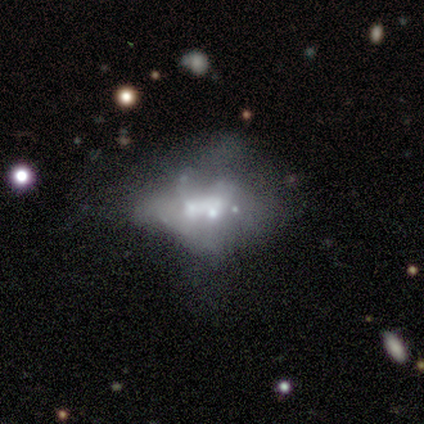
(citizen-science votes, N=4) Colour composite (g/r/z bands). It shows a featured or disk galaxy (100%) with no bar (100%), no spiral arms (100%) and a moderate central bulge (75%). Merging: minor disturbance (50%, tied with major disturbance).